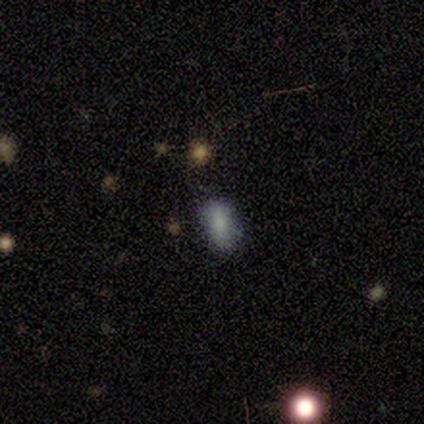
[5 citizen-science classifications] Consensus on every question: smooth or featured — smooth (100%); how rounded — in between (100%); merging — none (100%).